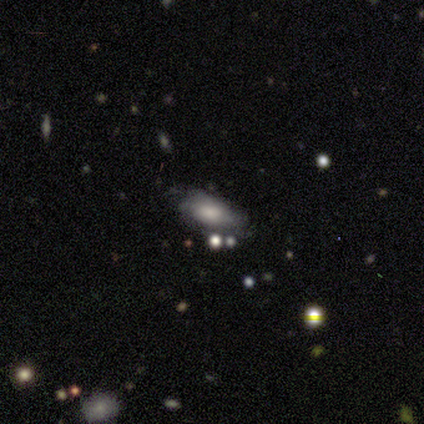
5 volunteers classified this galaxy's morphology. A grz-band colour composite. It shows a smooth galaxy with no disk features (80%) that is in between round and cigar-shaped (75%). Merging: none (50%, tied with minor disturbance).